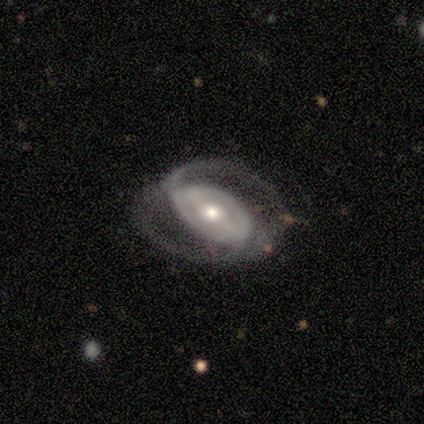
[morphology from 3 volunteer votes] A featured or disk galaxy (67%) with a weak bar (100%), 2 (50%, tied with can't tell) medium (50%, tied with loose) spiral arms (100%) and a moderate central bulge (100%).

Vote fractions:
- Smooth or featured? featured or disk: 67% / star or artifact: 33% / smooth: 0%
- Edge-on disk? no: 100% / yes: 0%
- Bar? weak: 100% / strong: 0% / no: 0%
- Spiral arms? yes: 100% / no: 0%
- Spiral winding? medium: 50% (tied) / loose: 50% (tied) / tight: 0%
- Spiral arm count? 2: 50% (tied) / can't tell: 50% (tied) / 1: 0% / 3: 0% / 4: 0% / more than 4: 0%
- Bulge size? moderate: 100% / dominant: 0% / large: 0% / small: 0% / none: 0%
- Merging? minor disturbance: 50% (tied) / major disturbance: 50% (tied) / none: 0% / merger: 0%